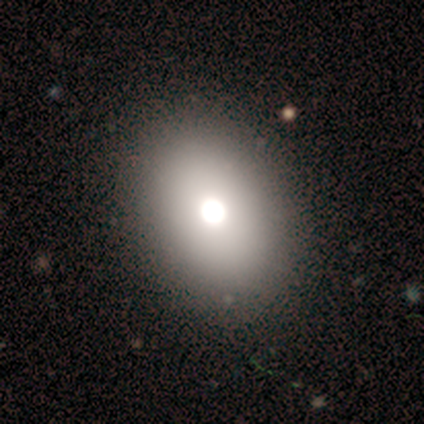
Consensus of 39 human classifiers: Smooth or featured?
  - smooth: 69% *
  - featured or disk: 18%
  - star or artifact: 13%
How rounded?
  - in between: 70% *
  - round: 30%
  - cigar-shaped: 0%
Merging?
  - none: 68% *
  - minor disturbance: 12%
  - major disturbance: 0%
  - merger: 0%